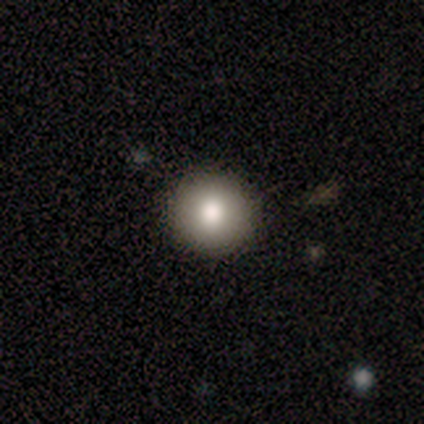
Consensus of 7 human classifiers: This appears to be a smooth galaxy with no disk features (86%) that is round (100%). Merging: none (100%).